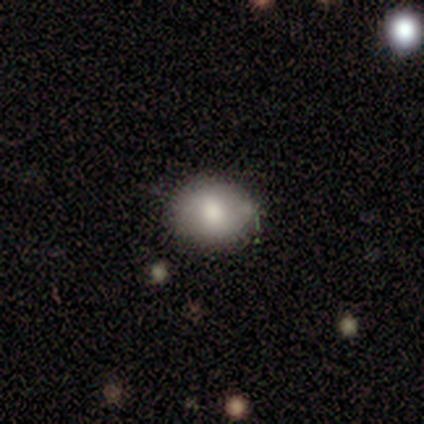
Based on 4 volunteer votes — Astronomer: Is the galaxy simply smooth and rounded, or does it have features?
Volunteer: smooth — 100%.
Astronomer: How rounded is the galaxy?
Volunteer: in between — 50%.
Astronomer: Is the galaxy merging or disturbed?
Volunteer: none — 75%.